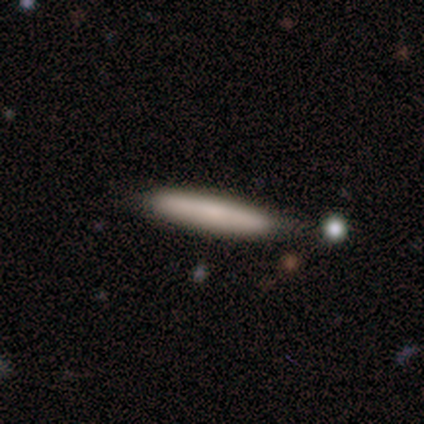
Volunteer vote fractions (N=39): Smooth or featured? smooth (74%)
How rounded? cigar-shaped (97%)
Merging? none (92%)